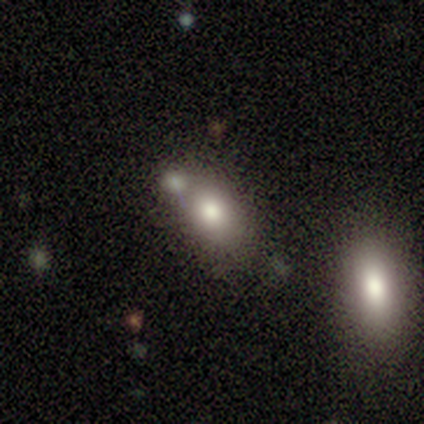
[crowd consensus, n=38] Volunteers were most divided on "merging": none: 43%, merger: 35%, minor disturbance: 14%, major disturbance: 8%. More confident: smooth or featured — smooth (79%); how rounded — in between (77%).